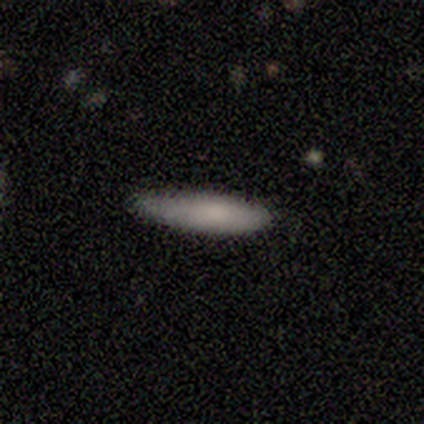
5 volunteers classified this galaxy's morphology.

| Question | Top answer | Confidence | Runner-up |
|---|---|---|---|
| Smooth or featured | smooth | 80% | featured or disk (20%) |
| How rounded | cigar-shaped | 75% | in between (25%) |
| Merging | none | 80% | minor disturbance (20%) |